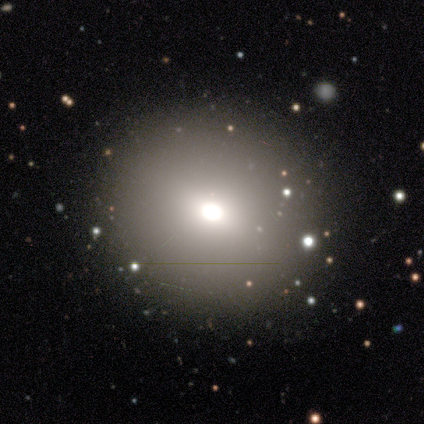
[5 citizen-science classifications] Smooth or featured? 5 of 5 (100%) said smooth. How rounded? 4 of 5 (80%) said round. Merging? 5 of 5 (100%) said none.